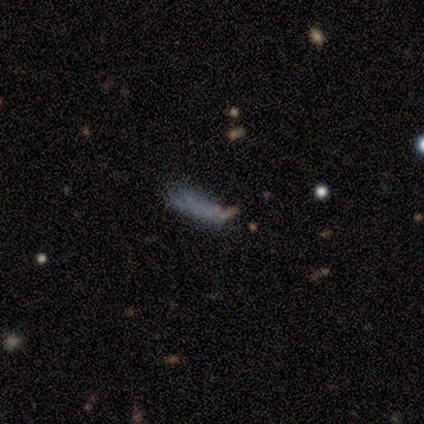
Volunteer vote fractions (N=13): smooth-or-featured: smooth: 77% | featured or disk: 15% | star or artifact: 8%
  how-rounded: cigar-shaped: 80% | in between: 20% | round: 0%
  merging: none: 67% | minor disturbance: 25% | major disturbance: 8% | merger: 0%